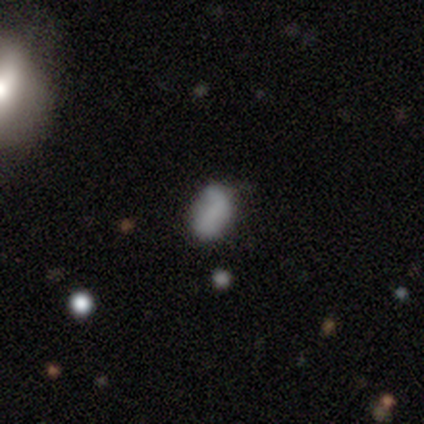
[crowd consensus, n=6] Smooth or featured? 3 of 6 (50%) said featured or disk. Edge-on disk? 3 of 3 (100%) said no. Bar? 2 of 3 (67%) said no. Spiral arms? 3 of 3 (100%) said yes. Spiral winding? 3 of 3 (100%) said loose. Spiral arm count? 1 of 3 (33%, tied with 2 and can't tell) said 1. Bulge size? 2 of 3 (67%) said none. Merging? 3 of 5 (60%) said none.